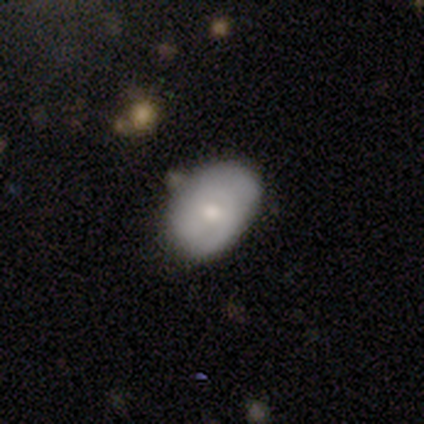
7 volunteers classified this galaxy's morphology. Q: Smooth or featured?
A: smooth (100%)
Q: How rounded?
A: in between (86%); runner-up: round (14%)
Q: Merging?
A: minor disturbance (71%); runner-up: none (29%)